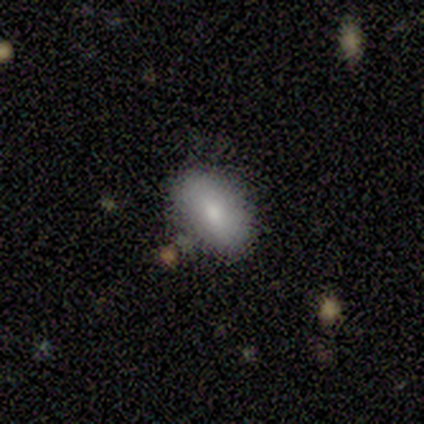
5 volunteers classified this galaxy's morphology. type=smooth (80%); roundness=in between (50%); merging=none (75%).